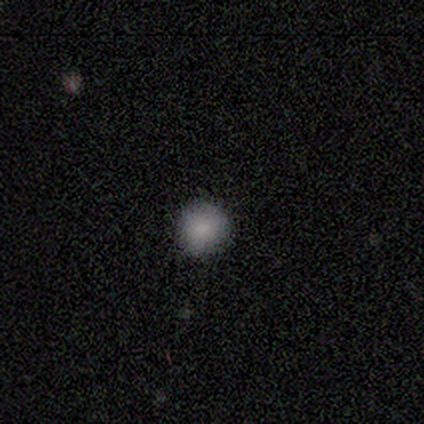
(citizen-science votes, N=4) Smooth or featured: smooth — 75% (star or artifact — 25%)
How rounded: round — 100%
Merging: none — 67% (major disturbance — 33%)